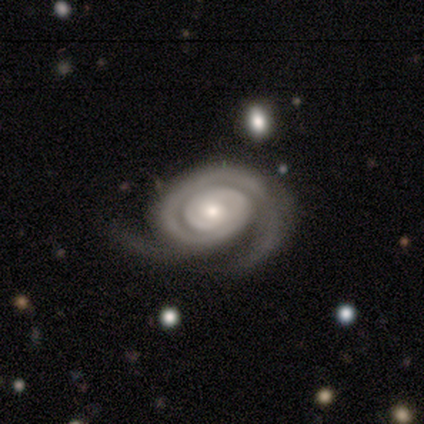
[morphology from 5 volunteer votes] smooth_or_featured: featured or disk (p=1.00)
disk_edge_on: no (p=0.80) [alt: yes p=0.20]
bar: no (p=1.00)
has_spiral_arms: yes (p=1.00)
spiral_winding: tight (p=0.75) [alt: medium p=0.25]
spiral_arm_count: 2 (p=0.75) [alt: can't tell p=0.25]
bulge_size: moderate (p=0.50) [tied with: small p=0.50]
merging: none (p=0.60) [alt: minor disturbance p=0.20]